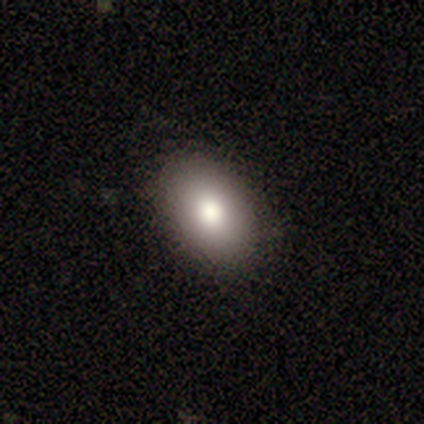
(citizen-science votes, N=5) This is clearly a smooth galaxy (80%). How rounded: clearly in between (100%). Merging: clearly none (100%).